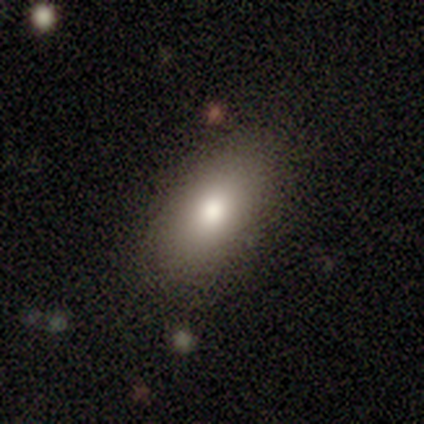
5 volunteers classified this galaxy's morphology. Smooth or featured: smooth — 80% (featured or disk — 20%)
How rounded: in between — 100%
Merging: none — 100%